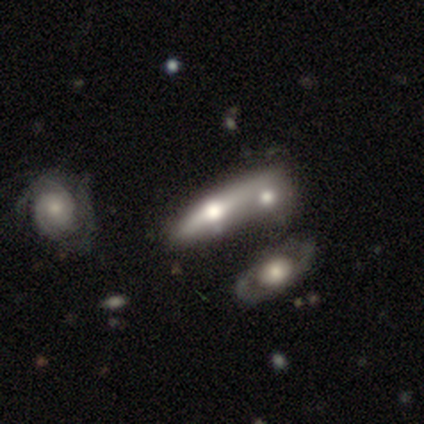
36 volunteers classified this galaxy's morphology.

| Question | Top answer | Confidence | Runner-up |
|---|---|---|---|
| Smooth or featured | featured or disk | 61% | smooth (33%) |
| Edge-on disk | yes | 68% | no (32%) |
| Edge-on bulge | rounded | 100% | — |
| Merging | merger | 62% | none (15%) |